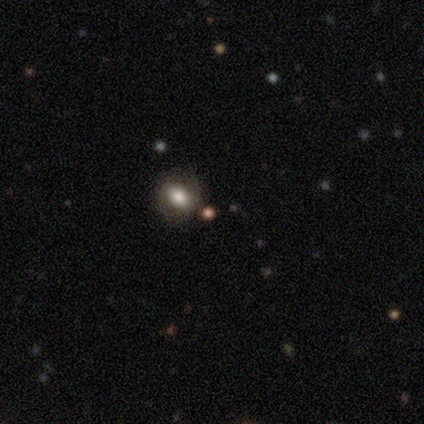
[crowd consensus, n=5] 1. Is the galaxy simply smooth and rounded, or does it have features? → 80% smooth, 20% star or artifact, 0% featured or disk.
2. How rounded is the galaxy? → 75% round, 25% in between, 0% cigar-shaped.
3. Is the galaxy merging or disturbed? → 100% none, 0% minor disturbance, 0% major disturbance, 0% merger.